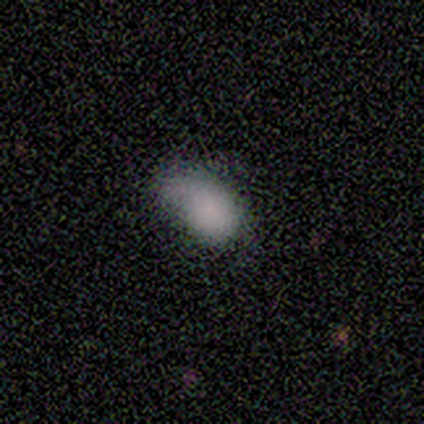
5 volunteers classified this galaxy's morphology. smooth_or_featured: smooth (p=0.40) [tied with: star or artifact p=0.40]
how_rounded: in between (p=1.00)
merging: none (p=0.33) [tied with: minor disturbance p=0.33, major disturbance p=0.33]